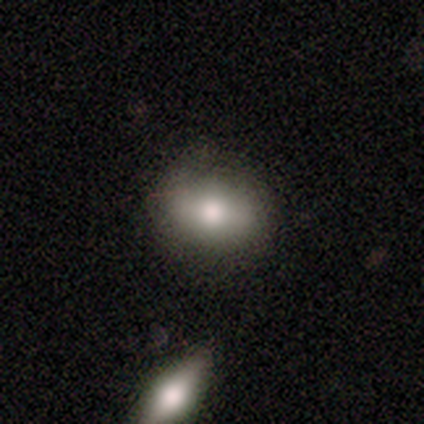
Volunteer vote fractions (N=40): This is likely a smooth galaxy (68%). How rounded: likely in between (70%). Merging: marginally none (39%).